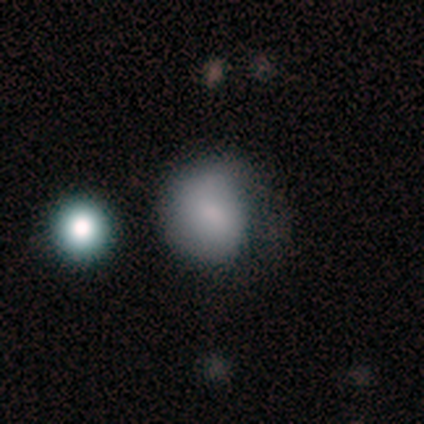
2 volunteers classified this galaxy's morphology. type=smooth (50%, tied with star or artifact); roundness=round (100%); merging=minor disturbance (100%).